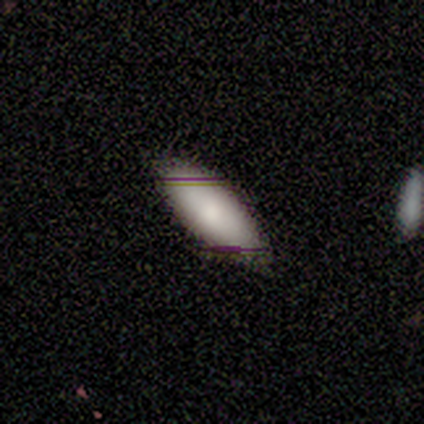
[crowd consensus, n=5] Q: Smooth or featured?
A: smooth (60%); runner-up: featured or disk (20%)
Q: How rounded?
A: in between (67%); runner-up: cigar-shaped (33%)
Q: Merging?
A: none (100%)